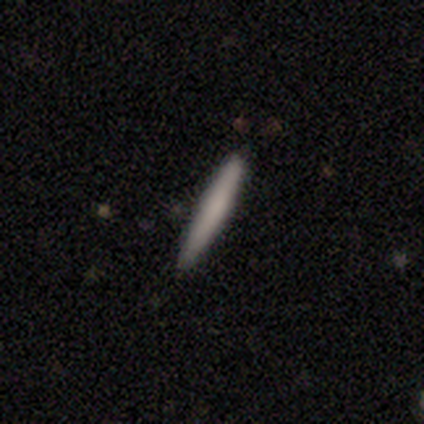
Morphology: type=smooth (67%); roundness=cigar-shaped (100%); merging=none (100%).